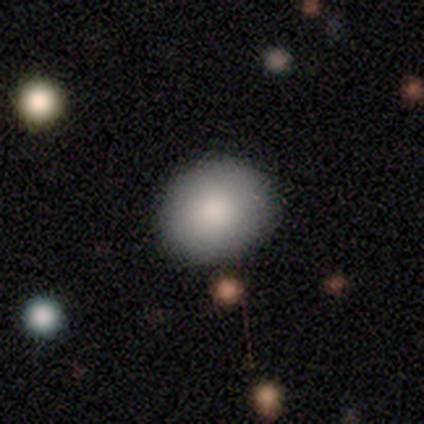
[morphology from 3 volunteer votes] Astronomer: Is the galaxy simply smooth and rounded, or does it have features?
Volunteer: smooth — 67%.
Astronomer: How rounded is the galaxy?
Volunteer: round — 100%.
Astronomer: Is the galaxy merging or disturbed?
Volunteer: none — 100%.